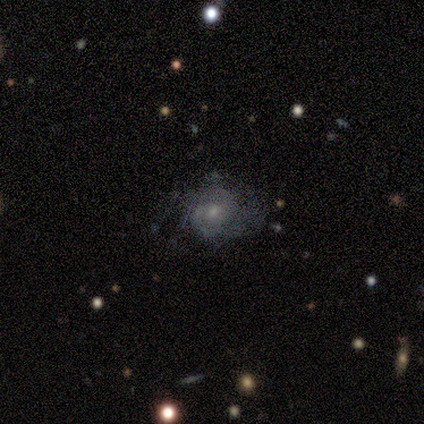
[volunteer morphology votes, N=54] This appears to be a featured or disk galaxy (57%) with no bar (77%), 2 (57%) tight (57%) spiral arms (70%) and a small central bulge (60%). Merging: none (52%).